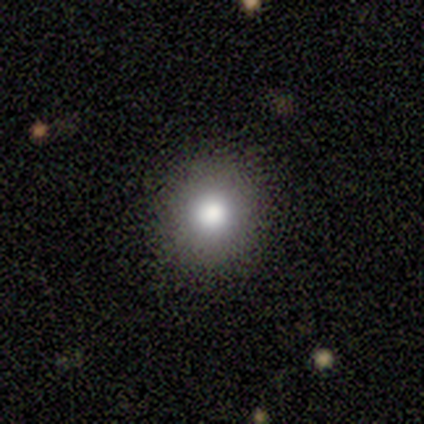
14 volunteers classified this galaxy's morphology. smooth 93%, star or artifact 7%, featured or disk 0%. Down the decision tree: how rounded — round (92%); merging — none (92%).